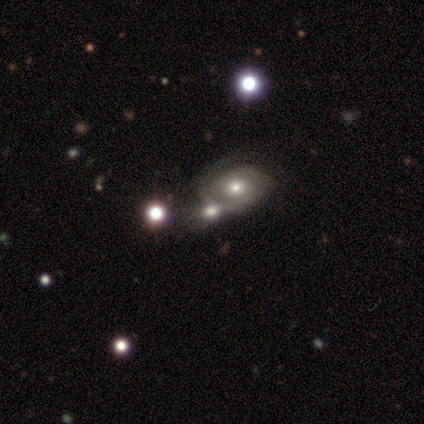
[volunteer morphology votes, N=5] Q: Smooth or featured?
A: smooth (60%); runner-up: featured or disk (20%)
Q: How rounded?
A: round (67%); runner-up: in between (33%)
Q: Merging?
A: merger (50%); runner-up: none (25%)